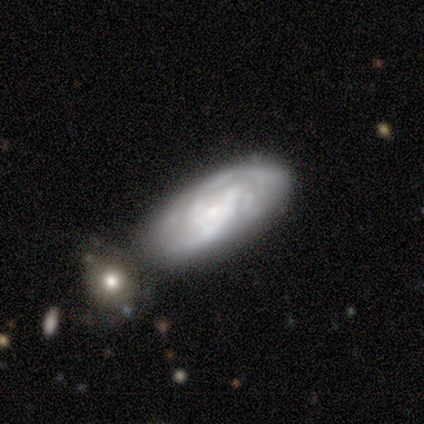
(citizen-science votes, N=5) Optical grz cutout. It shows a smooth galaxy with no disk features (60%) that is in between round and cigar-shaped (67%). Merging: none (40%, tied with merger).